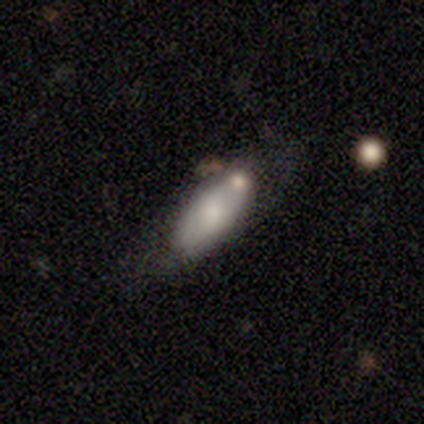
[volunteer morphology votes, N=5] Q: Smooth or featured?
A: smooth (60%); runner-up: featured or disk (20%)
Q: How rounded?
A: in between (100%)
Q: Merging?
A: none (50%); runner-up: minor disturbance (25%)